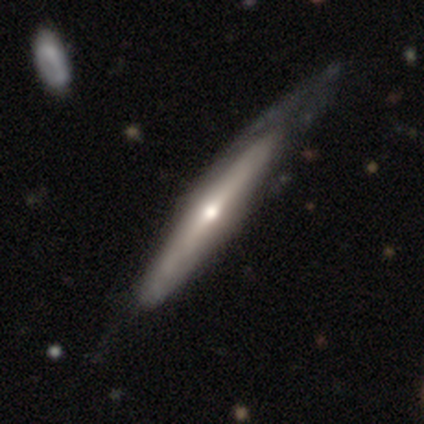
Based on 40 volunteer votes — Volunteers were most divided on "merging": none: 42%, minor disturbance: 32%, major disturbance: 25%, merger: 0%. More confident: edge-on disk — yes (90%); edge-on bulge — rounded (89%); smooth or featured — featured or disk (75%).